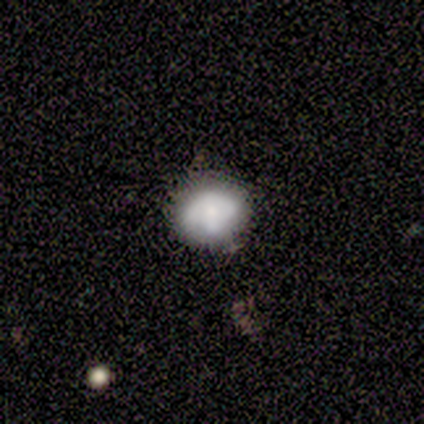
This is likely a smooth galaxy (69%). How rounded: likely round (67%). Merging: possibly none (58%).